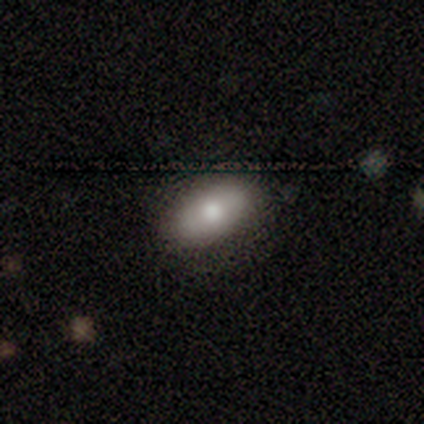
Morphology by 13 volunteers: type=smooth (62%); roundness=in between (88%); merging=none (83%).